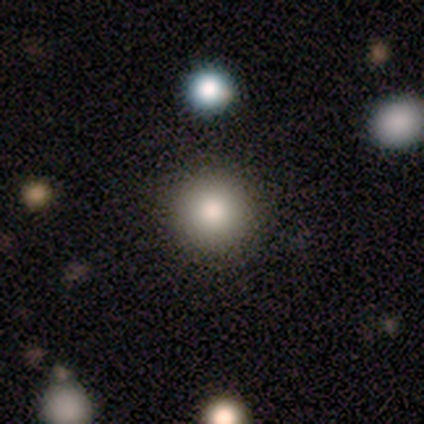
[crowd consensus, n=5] Smooth or featured? smooth (60%)
How rounded? round (100%)
Merging? none (100%)